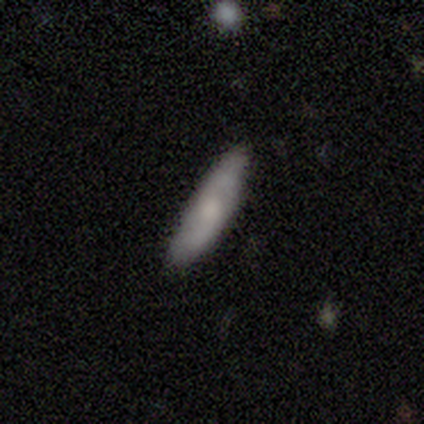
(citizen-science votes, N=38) Smooth or featured: smooth — 66% (featured or disk — 32%)
How rounded: cigar-shaped — 80% (in between — 20%)
Merging: none — 89% (minor disturbance — 8%)